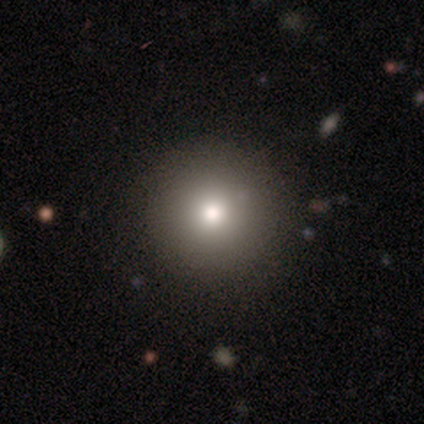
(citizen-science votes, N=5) Smooth or featured? smooth (100%)
How rounded? round (100%)
Merging? none (80%)